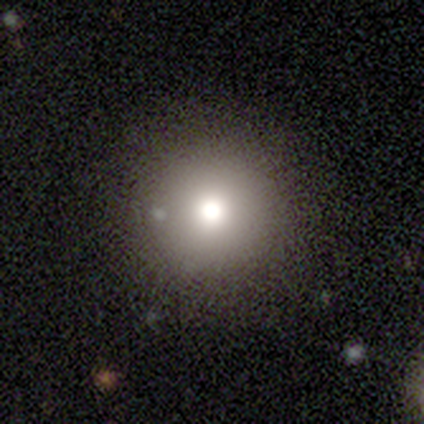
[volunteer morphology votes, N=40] smooth 75%, featured or disk 12%, star or artifact 12%. Down the decision tree: how rounded — round (93%); merging — none (86%).